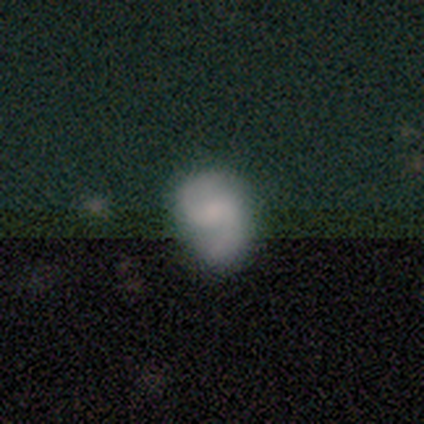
Overall: featured or disk (68%). Edge-on disk: no (100%). Bar: no (58%; weak 38%). Spiral arms: yes (92%). Spiral arm count: 2 (96%). Spiral winding: medium (58%; loose 29%). Bulge size: small (35%; none 31%). Merging: none (55%; minor disturbance 27%).